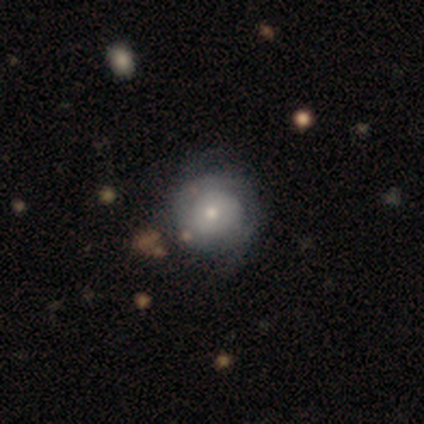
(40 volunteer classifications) Smooth or featured? featured or disk (55%)
Edge-on disk? no (95%)
Bar? no (95%)
Spiral arms? yes (71%)
Spiral winding? tight (73%)
Spiral arm count? can't tell (67%)
Bulge size? moderate (52%)
Merging? none (49%)